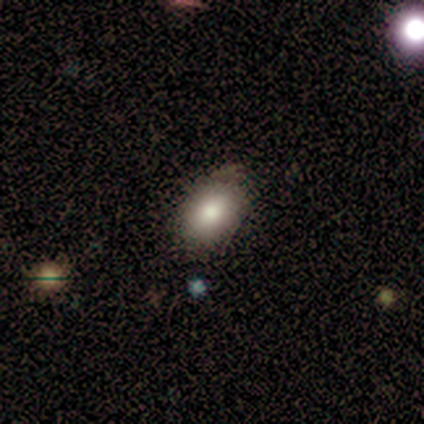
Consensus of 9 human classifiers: smooth-or-featured: smooth: 56% | featured or disk: 22% | star or artifact: 22%
  how-rounded: in between: 80% | round: 20% | cigar-shaped: 0%
  merging: none: 43% (tied) | minor disturbance: 43% (tied) | merger: 14% | major disturbance: 0%